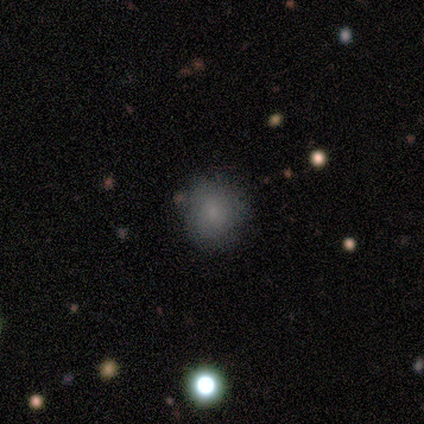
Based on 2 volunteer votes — A smooth galaxy with no disk features (100%) that is round (50%, tied with in between). Merging: none (100%).